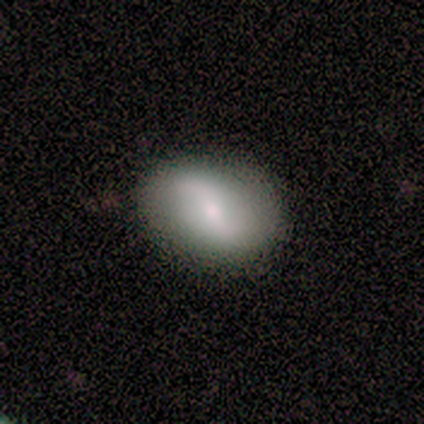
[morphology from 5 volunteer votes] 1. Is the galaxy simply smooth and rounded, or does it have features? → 60% smooth, 40% featured or disk, 0% star or artifact.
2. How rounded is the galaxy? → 100% in between, 0% round, 0% cigar-shaped.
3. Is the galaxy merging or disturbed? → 80% none, 20% minor disturbance, 0% major disturbance, 0% merger.